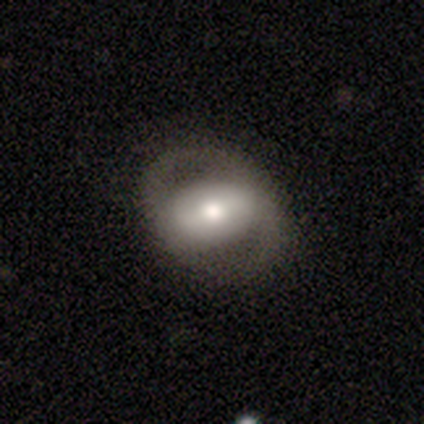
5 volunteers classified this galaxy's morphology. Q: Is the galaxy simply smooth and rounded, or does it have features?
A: featured or disk — 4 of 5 (80%).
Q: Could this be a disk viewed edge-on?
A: no — 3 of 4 (75%).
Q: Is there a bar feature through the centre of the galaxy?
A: strong — 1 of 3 (33%, tied with weak and no).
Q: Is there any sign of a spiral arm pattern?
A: yes — 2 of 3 (67%).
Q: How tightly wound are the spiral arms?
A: tight — 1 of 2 (50%, tied with medium).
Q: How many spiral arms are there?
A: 2 — 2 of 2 (100%).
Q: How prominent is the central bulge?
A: moderate — 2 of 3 (67%).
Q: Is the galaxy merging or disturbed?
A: none — 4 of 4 (100%).